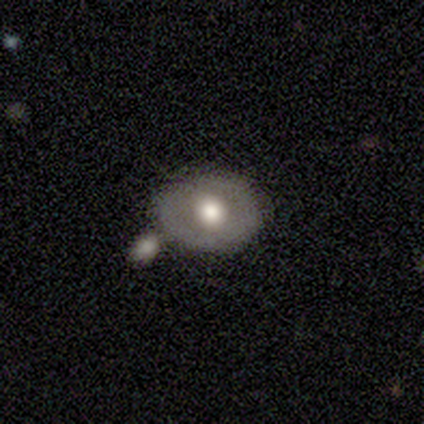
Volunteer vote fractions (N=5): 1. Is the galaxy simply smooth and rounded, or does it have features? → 60% smooth, 40% featured or disk, 0% star or artifact.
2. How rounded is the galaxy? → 67% in between, 33% round, 0% cigar-shaped.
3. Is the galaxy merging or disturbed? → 60% none, 40% merger, 0% minor disturbance, 0% major disturbance.